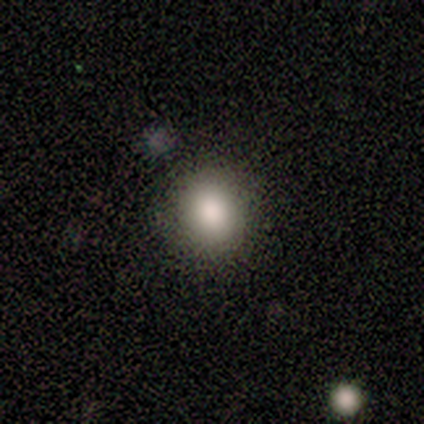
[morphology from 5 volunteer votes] A smooth galaxy with no disk features (100%) that is in between round and cigar-shaped (60%).

Vote fractions:
- Smooth or featured? smooth: 100% / featured or disk: 0% / star or artifact: 0%
- How rounded? in between: 60% / round: 40% / cigar-shaped: 0%
- Merging? none: 100% / minor disturbance: 0% / major disturbance: 0% / merger: 0%